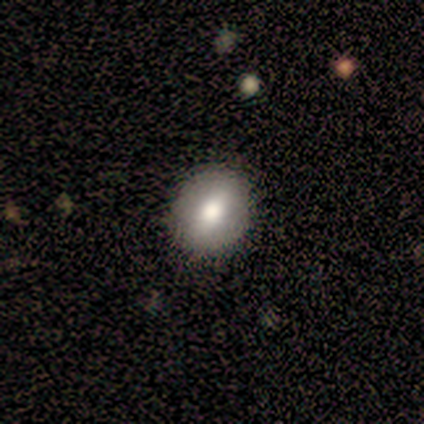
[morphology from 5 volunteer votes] type=smooth (80%); roundness=round (75%); merging=none (100%).